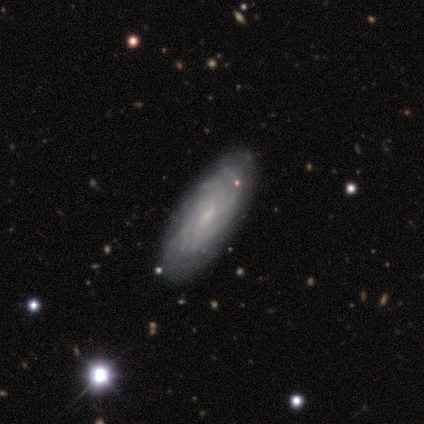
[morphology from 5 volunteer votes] Q: Smooth or featured?
A: smooth (40%); tied with: featured or disk (40%)
Q: How rounded?
A: in between (50%); tied with: cigar-shaped (50%)
Q: Merging?
A: none (100%)